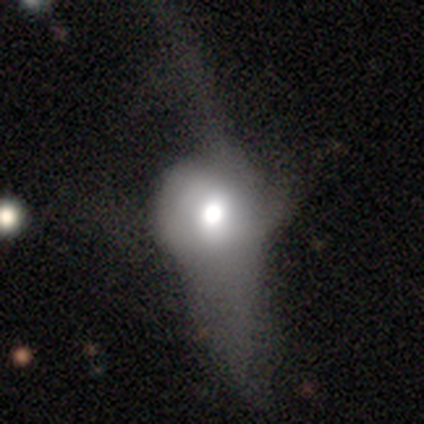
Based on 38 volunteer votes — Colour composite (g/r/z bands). It shows a smooth galaxy with no disk features (47%) that is round (44%). Merging: major disturbance (70%).